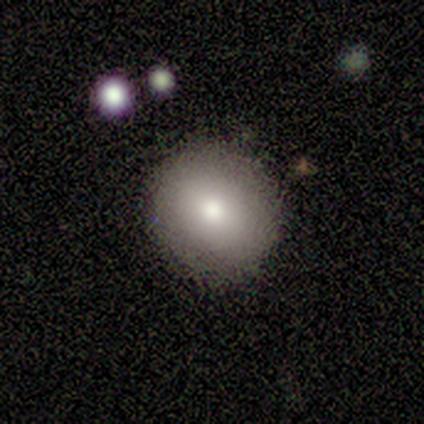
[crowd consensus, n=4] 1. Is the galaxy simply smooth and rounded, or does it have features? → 75% smooth, 25% featured or disk, 0% star or artifact.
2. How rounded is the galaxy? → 100% round, 0% in between, 0% cigar-shaped.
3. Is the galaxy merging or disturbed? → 75% none, 25% major disturbance, 0% minor disturbance, 0% merger.